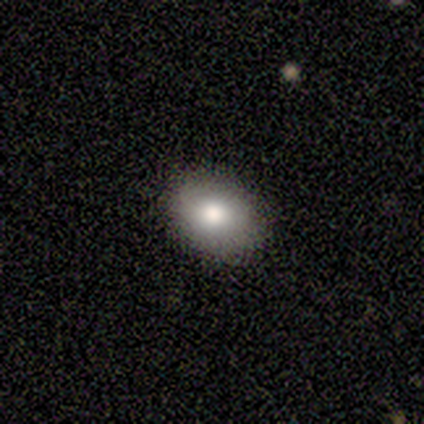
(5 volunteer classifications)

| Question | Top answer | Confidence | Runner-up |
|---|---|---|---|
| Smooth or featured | smooth | 100% | — |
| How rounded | in between | 100% | — |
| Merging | none | 100% | — |